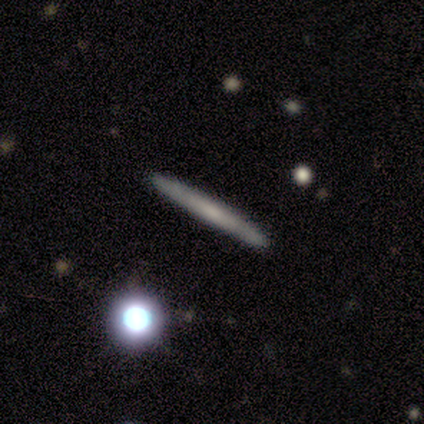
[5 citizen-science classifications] Overall: smooth (60%; featured or disk 20%). How rounded: cigar-shaped (100%). Merging: none (75%).